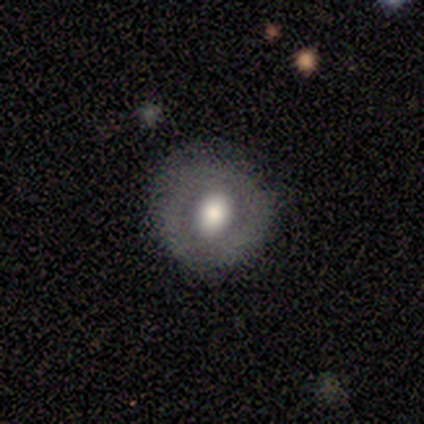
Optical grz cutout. It shows a smooth galaxy with no disk features (75%) that is round (100%). Merging: none (75%).